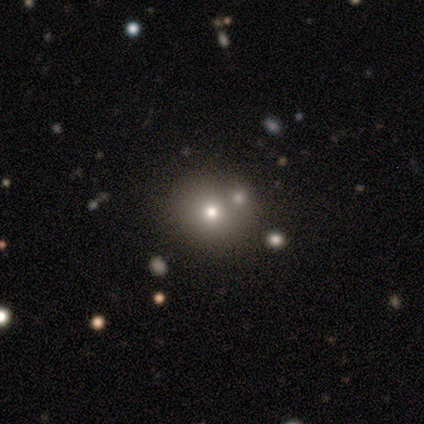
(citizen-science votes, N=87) smooth 55%, star or artifact 36%, featured or disk 9%. Down the decision tree: how rounded — round (92%); merging — none (68%).